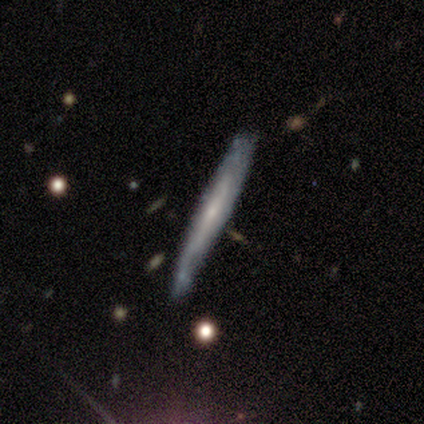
Overall: smooth (67%; featured or disk 33%). How rounded: cigar-shaped (100%). Merging: none (67%).